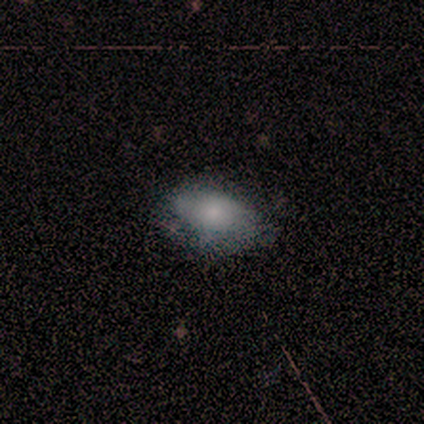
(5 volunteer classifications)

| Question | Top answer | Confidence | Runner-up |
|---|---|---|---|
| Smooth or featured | smooth | 60% | featured or disk (20%) |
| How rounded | in between | 67% | round (33%) |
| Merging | none | 50% | tied: major disturbance (50%) |